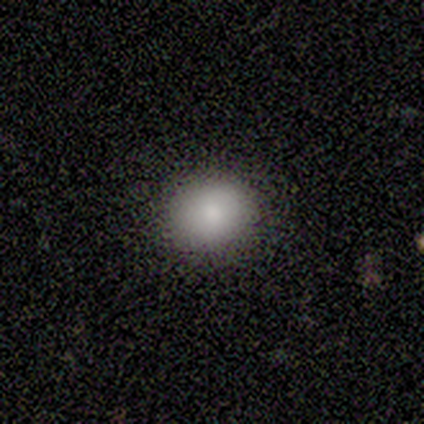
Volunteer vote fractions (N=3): Smooth or featured? 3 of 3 (100%) said smooth. How rounded? 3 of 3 (100%) said round. Merging? 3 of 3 (100%) said none.